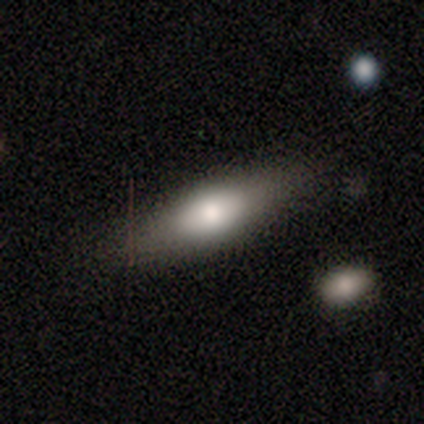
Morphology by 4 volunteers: Smooth or featured? 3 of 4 (75%) said smooth. How rounded? 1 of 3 (33%, tied with in between and cigar-shaped) said round. Merging? 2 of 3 (67%) said none.